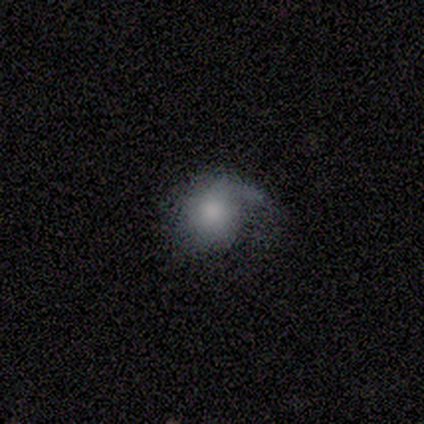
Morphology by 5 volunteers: A smooth galaxy with no disk features (60%) that is round (100%). Merging: none (60%).